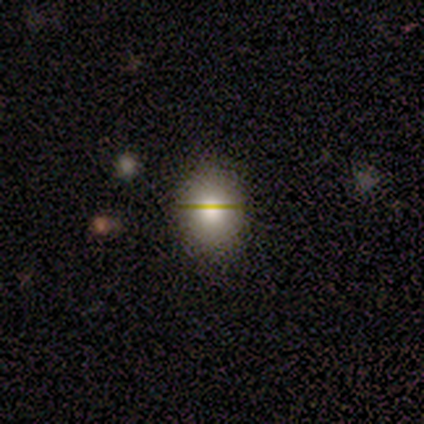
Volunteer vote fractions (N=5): Smooth or featured? 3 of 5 (60%) said smooth. How rounded? 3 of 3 (100%) said round. Merging? 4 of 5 (80%) said none.